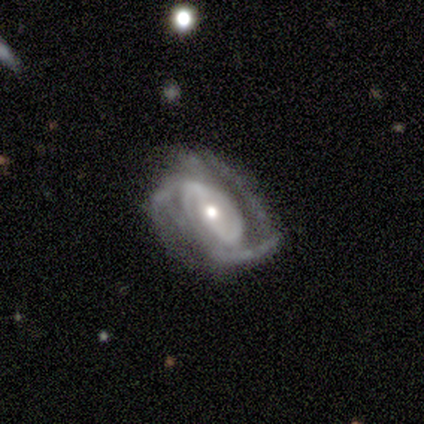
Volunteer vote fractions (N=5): Smooth or featured? featured or disk (80%)
Edge-on disk? no (100%)
Bar? weak (50%)
Spiral arms? yes (100%)
Spiral winding? tight (50%, tied with medium)
Spiral arm count? 2 (50%)
Bulge size? moderate (50%)
Merging? none (40%, tied with minor disturbance)